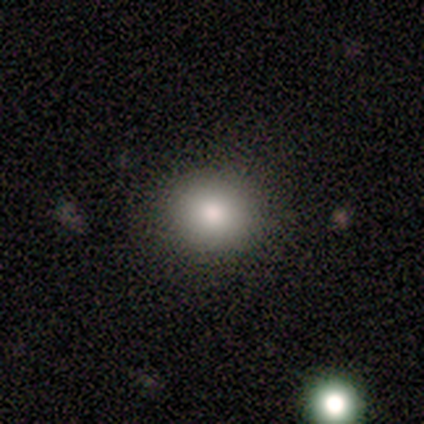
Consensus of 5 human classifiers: A smooth galaxy with no disk features (80%) that is round (50%, tied with in between). Merging: none (75%).